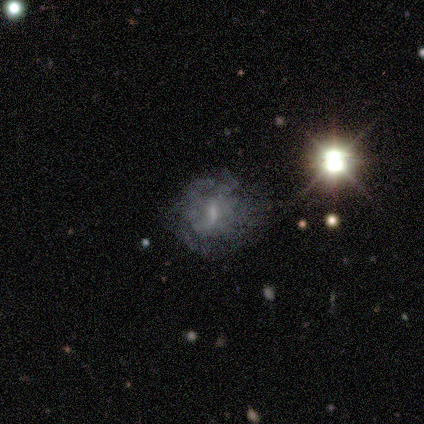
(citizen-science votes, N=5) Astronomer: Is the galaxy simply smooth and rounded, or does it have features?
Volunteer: smooth — 40%, tied with star or artifact at 40%.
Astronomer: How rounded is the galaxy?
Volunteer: round — 50%, tied with cigar-shaped at 50%.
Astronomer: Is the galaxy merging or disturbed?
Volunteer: none — 67%.